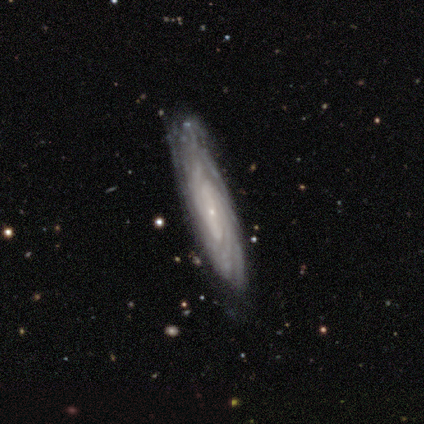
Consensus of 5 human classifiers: A featured or disk galaxy (100%) with a strong bar (33%, tied with weak and no), 2 (33%, tied with 4 and can't tell) tight (100%) spiral arms (100%) and a small central bulge (100%). Merging: none (100%).